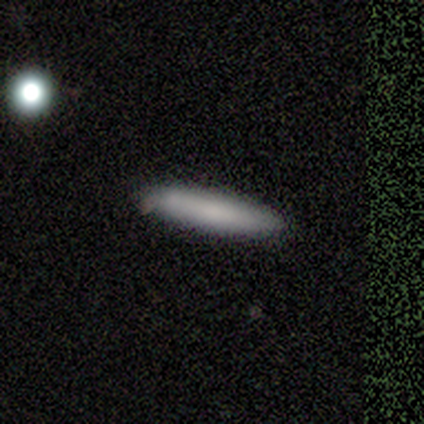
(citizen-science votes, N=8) Smooth or featured? smooth (88%)
How rounded? cigar-shaped (86%)
Merging? none (86%)